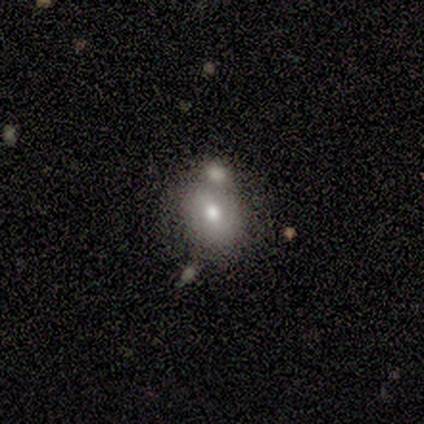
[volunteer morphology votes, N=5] type=smooth (80%); roundness=round (50%, tied with in between); merging=merger (60%).